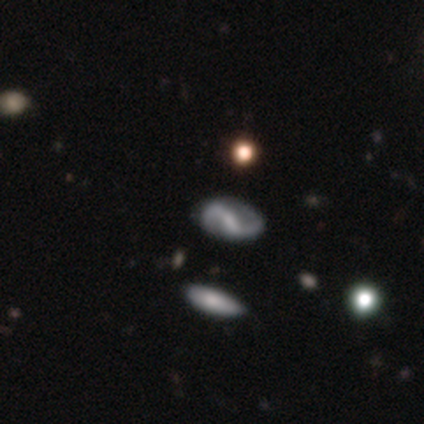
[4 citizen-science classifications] This appears to be a featured or disk galaxy (100%) with a weak bar (75%), 2 (100%) medium (50%, tied with loose) spiral arms (100%) and no central bulge (50%). Merging: none (100%).